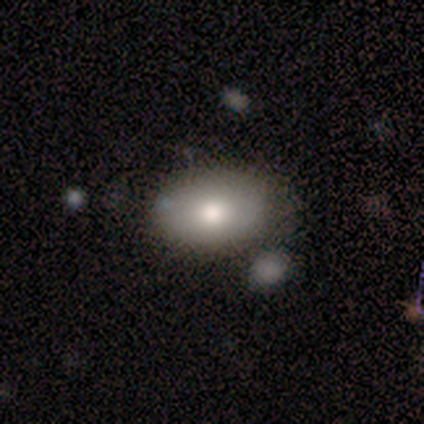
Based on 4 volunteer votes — Overall: smooth (75%). How rounded: in between (100%). Merging: none (50%, tied with merger).